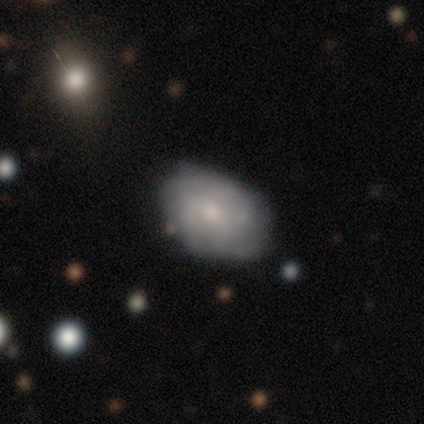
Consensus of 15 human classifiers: Q: Smooth or featured?
A: smooth (73%); runner-up: featured or disk (27%)
Q: How rounded?
A: in between (100%)
Q: Merging?
A: none (73%); runner-up: minor disturbance (20%)